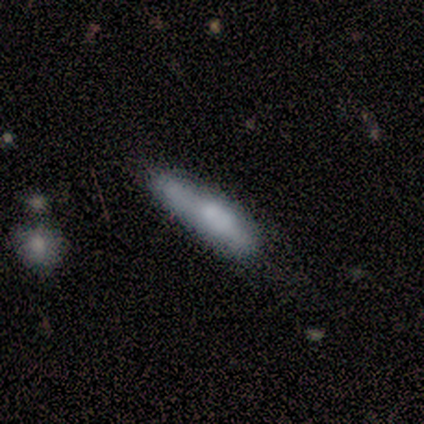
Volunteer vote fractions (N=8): This appears to be a smooth galaxy with no disk features (50%) that is in between round and cigar-shaped (50%, tied with cigar-shaped). Merging: none (43%, tied with minor disturbance).